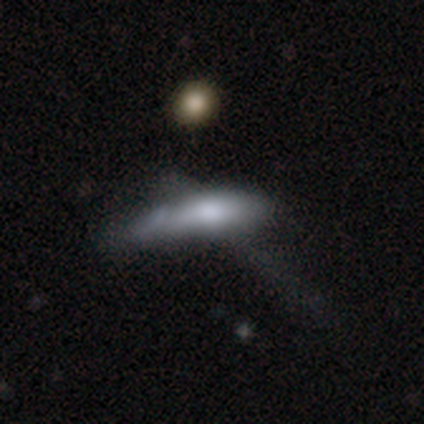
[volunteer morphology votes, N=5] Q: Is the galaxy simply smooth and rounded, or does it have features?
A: smooth — 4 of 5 (80%).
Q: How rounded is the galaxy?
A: cigar-shaped — 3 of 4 (75%).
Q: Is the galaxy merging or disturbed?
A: major disturbance — 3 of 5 (60%).